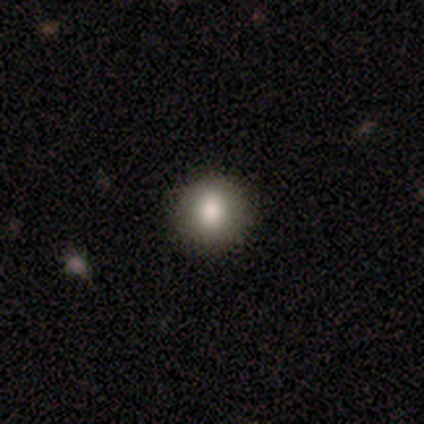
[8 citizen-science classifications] A smooth galaxy with no disk features (100%) that is round (62%). Merging: none (88%).